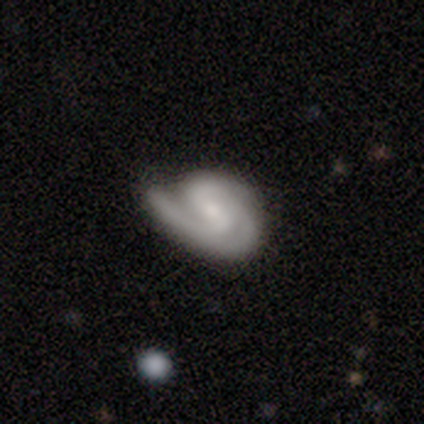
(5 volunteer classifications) smooth_or_featured: featured or disk (p=0.80) [alt: smooth p=0.20]
disk_edge_on: no (p=1.00)
bar: weak (p=0.50) [alt: strong p=0.25]
has_spiral_arms: yes (p=1.00)
spiral_winding: tight (p=1.00)
spiral_arm_count: 2 (p=0.75) [alt: 3 p=0.25]
bulge_size: small (p=1.00)
merging: minor disturbance (p=0.40) [tied with: major disturbance p=0.40]